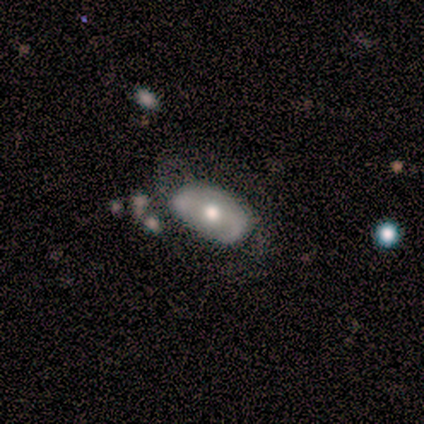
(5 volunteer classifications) This is clearly a smooth galaxy (80%). How rounded: clearly in between (100%). Merging: clearly none (80%).